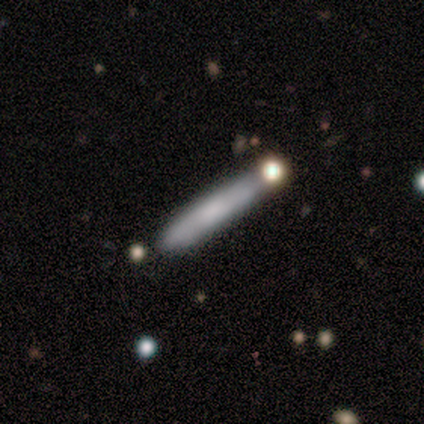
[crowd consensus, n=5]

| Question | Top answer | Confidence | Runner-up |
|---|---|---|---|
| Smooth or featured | featured or disk | 60% | smooth (40%) |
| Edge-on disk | yes | 100% | — |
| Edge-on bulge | none | 100% | — |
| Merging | none | 80% | merger (20%) |